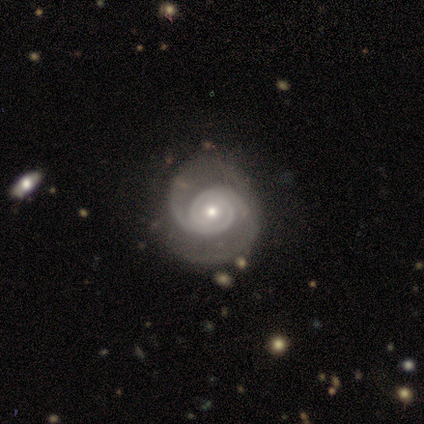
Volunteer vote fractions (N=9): Overall: featured or disk (89%). Edge-on disk: no (100%). Bar: no (88%). Spiral arms: yes (100%). Spiral arm count: 2 (100%). Spiral winding: medium (62%; tight 38%). Bulge size: moderate (50%, tied with small). Merging: none (67%).